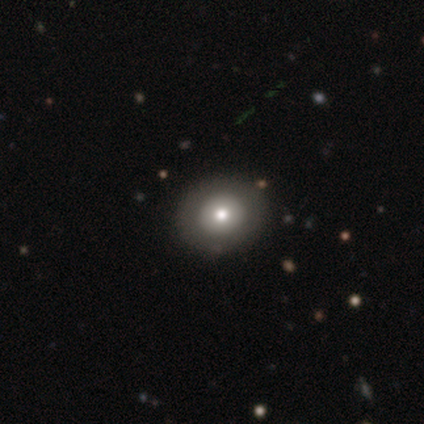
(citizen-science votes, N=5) Overall: smooth (80%). How rounded: round (50%, tied with in between). Merging: none (80%).